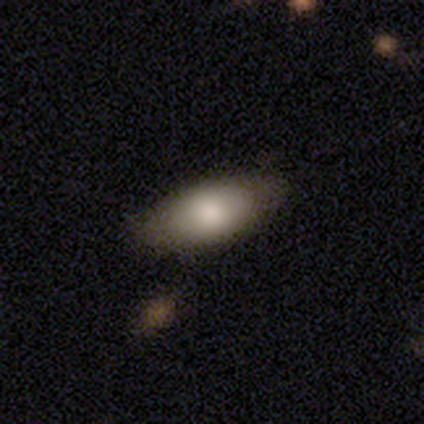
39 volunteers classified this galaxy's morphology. A smooth galaxy with no disk features (82%) that is in between round and cigar-shaped (94%).

Vote fractions:
- Smooth or featured? smooth: 82% / featured or disk: 13% / star or artifact: 5%
- How rounded? in between: 94% / cigar-shaped: 6% / round: 0%
- Merging? none: 59% / minor disturbance: 11% / merger: 8% / major disturbance: 0%